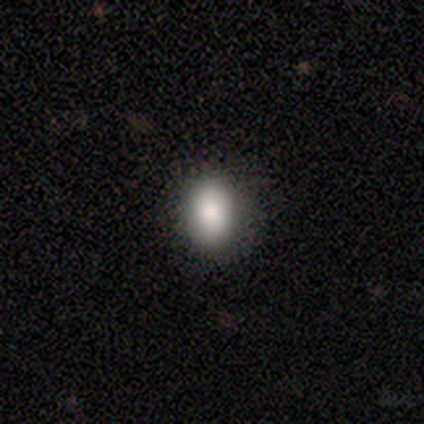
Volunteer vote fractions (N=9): This appears to be a smooth galaxy with no disk features (89%) that is round (50%, tied with in between). Merging: none (100%).